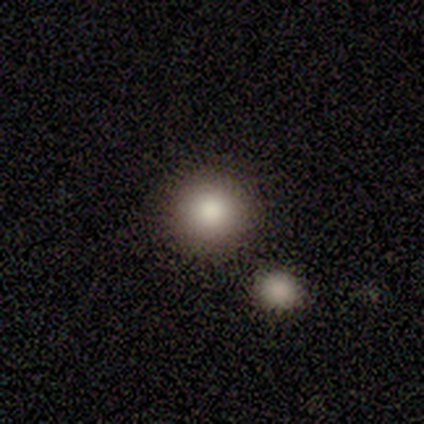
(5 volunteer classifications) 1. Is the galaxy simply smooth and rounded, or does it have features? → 80% smooth, 20% featured or disk, 0% star or artifact.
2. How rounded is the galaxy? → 100% round, 0% in between, 0% cigar-shaped.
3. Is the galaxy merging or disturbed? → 100% none, 0% minor disturbance, 0% major disturbance, 0% merger.